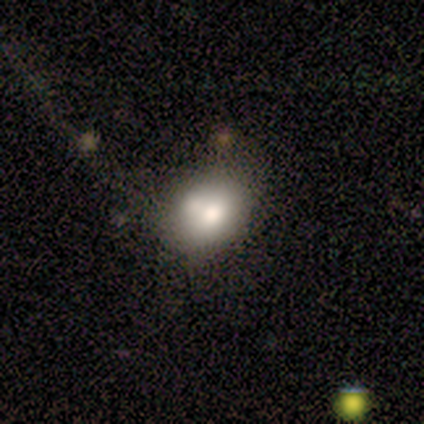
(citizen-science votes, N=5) Volunteers were most divided on "how rounded" (2-way tie): round: 50%, in between: 50%, cigar-shaped: 0%. More confident: smooth or featured — smooth (80%); merging — none (50%).